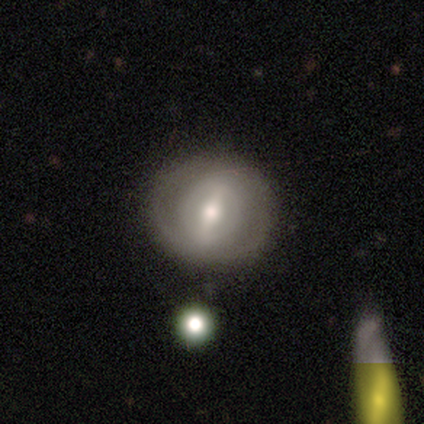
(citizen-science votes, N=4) This appears to be a smooth galaxy with no disk features (50%, tied with featured or disk) that is round (50%, tied with in between). Merging: none (100%).